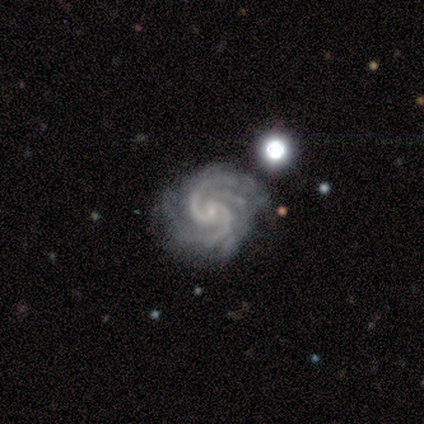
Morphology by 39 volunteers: Volunteers were most divided on "spiral arm count" (2-way tie): 2: 33%, 3: 33%, 4: 21%, can't tell: 8%, more than 4: 5%, 1: 0%. More confident: smooth or featured — featured or disk (100%); edge-on disk — no (100%); spiral arms — yes (100%); merging — none (79%); bulge size — small (77%); spiral winding — tight (54%); bar — no (51%).